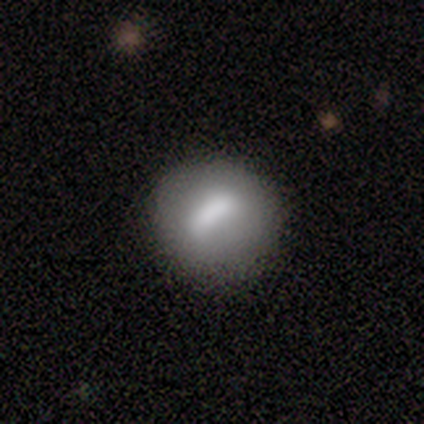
Smooth or featured? 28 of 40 (70%) said smooth. How rounded? 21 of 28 (75%) said round. Merging? 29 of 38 (76%) said none.